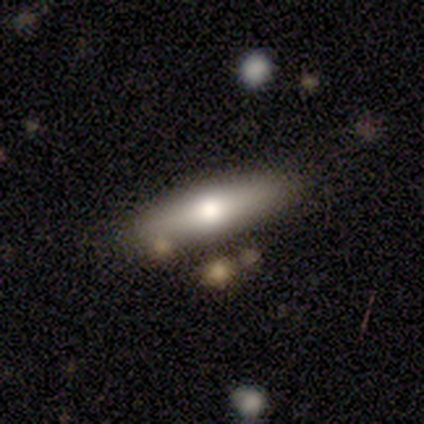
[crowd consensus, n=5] Morphology: type=featured or disk (60%); edge-on=yes (67%); edge-on bulge=boxy (50%, tied with rounded); merging=none (80%).